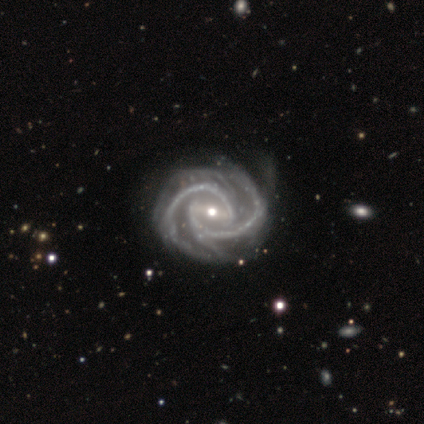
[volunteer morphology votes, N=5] Overall: featured or disk (100%). Edge-on disk: no (100%). Bar: weak (40%, tied with no). Spiral arms: yes (100%). Spiral arm count: 4 (40%; 2 20%). Spiral winding: tight (80%). Bulge size: small (60%; moderate 40%). Merging: none (100%).